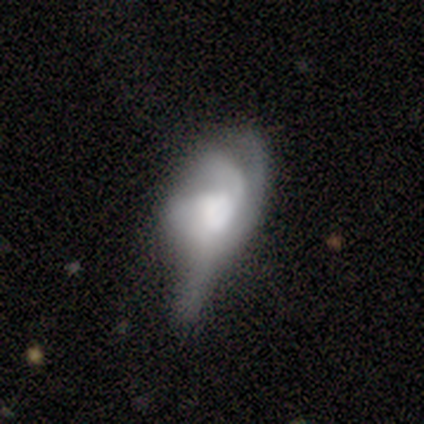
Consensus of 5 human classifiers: Morphology: type=featured or disk (80%); edge-on=no (100%); bar=no (75%); spiral arms=yes (75%); winding=loose (67%); arm count=can't tell (67%); bulge=none (50%); merging=major disturbance (100%).